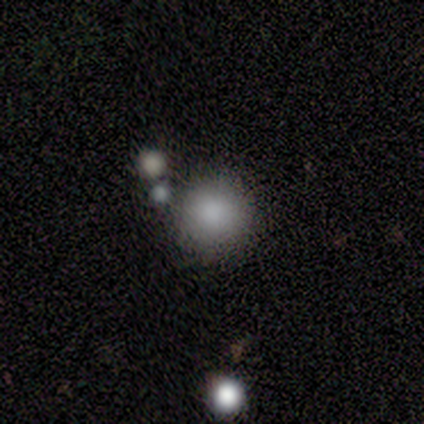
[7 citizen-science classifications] smooth_or_featured: smooth (p=0.86) [alt: star or artifact p=0.14]
how_rounded: round (p=0.83) [alt: in between p=0.17]
merging: none (p=0.83) [alt: minor disturbance p=0.17]